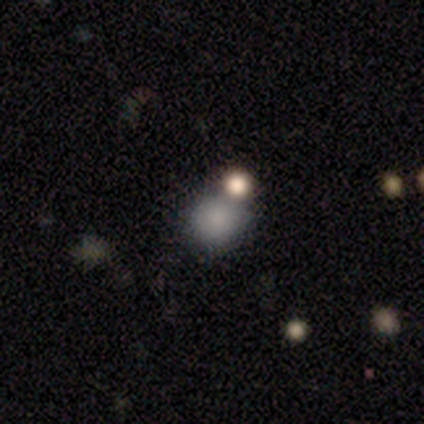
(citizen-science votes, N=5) A smooth galaxy with no disk features (60%) that is round (67%).

Vote fractions:
- Smooth or featured? smooth: 60% / star or artifact: 40% / featured or disk: 0%
- How rounded? round: 67% / in between: 33% / cigar-shaped: 0%
- Merging? none: 67% / minor disturbance: 33% / major disturbance: 0% / merger: 0%